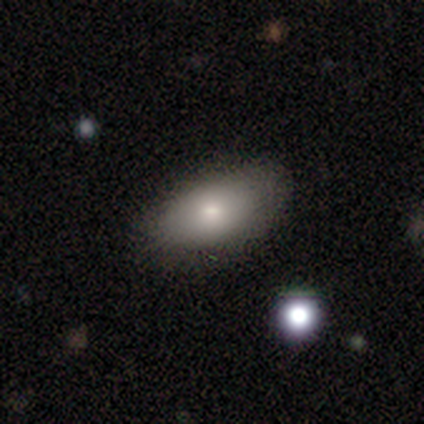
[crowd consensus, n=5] Overall: smooth (100%). How rounded: in between (80%). Merging: none (80%).